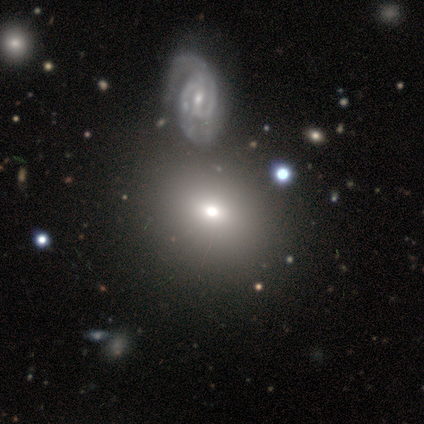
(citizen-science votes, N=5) Smooth or featured?
  - featured or disk: 60% *
  - smooth: 20%
  - star or artifact: 20%
Edge-on disk?
  - no: 67% *
  - yes: 33%
Bar?
  - strong: 100% *
  - weak: 0%
  - no: 0%
Spiral arms?
  - yes: 50% * (tied)
  - no: 50% * (tied)
Spiral winding?
  - medium: 100% *
  - tight: 0%
  - loose: 0%
Spiral arm count?
  - 4: 100% *
  - 1: 0%
  - 2: 0%
  - 3: 0%
  - more than 4: 0%
  - can't tell: 0%
Bulge size?
  - moderate: 50% * (tied)
  - small: 50% * (tied)
  - dominant: 0%
  - large: 0%
  - none: 0%
Merging?
  - none: 50% * (tied)
  - major disturbance: 50% * (tied)
  - minor disturbance: 0%
  - merger: 0%